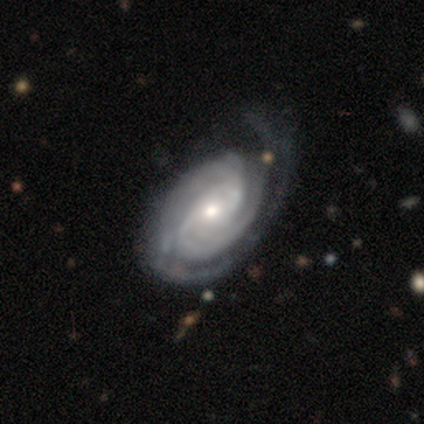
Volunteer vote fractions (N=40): smooth-or-featured: featured or disk: 98% | smooth: 2% | star or artifact: 0%
  disk-edge-on: no: 97% | yes: 3%
    bar: weak: 50% | no: 37% | strong: 13%
    has-spiral-arms: yes: 100% | no: 0%
      spiral-winding: tight: 66% | medium: 32% | loose: 3%
      spiral-arm-count: 2: 63% | 3: 16% | can't tell: 13% | 1: 8% | 4: 0% | more than 4: 0%
    bulge-size: moderate: 45% | small: 39% | large: 11% | dominant: 3% | none: 3%
  merging: none: 30% | major disturbance: 15% | minor disturbance: 12% | merger: 10%